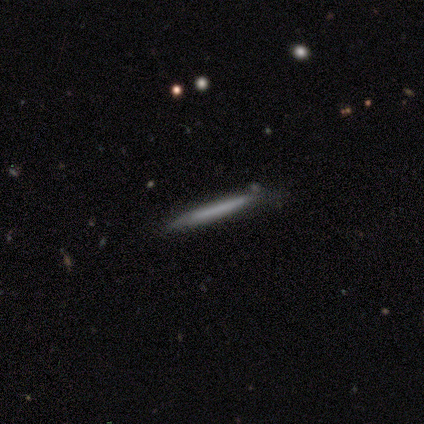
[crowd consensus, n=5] A smooth galaxy with no disk features (60%) that is cigar-shaped (100%).

Vote fractions:
- Smooth or featured? smooth: 60% / featured or disk: 40% / star or artifact: 0%
- How rounded? cigar-shaped: 100% / round: 0% / in between: 0%
- Merging? none: 80% / minor disturbance: 20% / major disturbance: 0% / merger: 0%